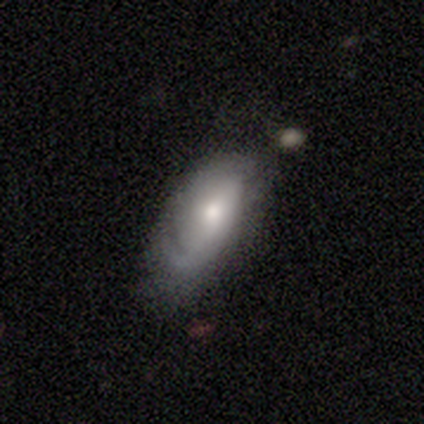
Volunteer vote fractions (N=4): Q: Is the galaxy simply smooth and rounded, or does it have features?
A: smooth — 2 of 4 (50%, tied with featured or disk).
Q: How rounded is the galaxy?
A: in between — 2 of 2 (100%).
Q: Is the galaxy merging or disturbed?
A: minor disturbance — 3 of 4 (75%).